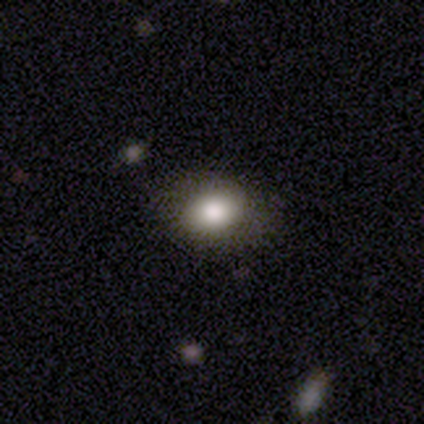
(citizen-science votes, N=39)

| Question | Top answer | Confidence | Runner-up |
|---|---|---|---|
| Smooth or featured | smooth | 82% | featured or disk (10%) |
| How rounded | in between | 66% | round (34%) |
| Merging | none | 75% | minor disturbance (22%) |